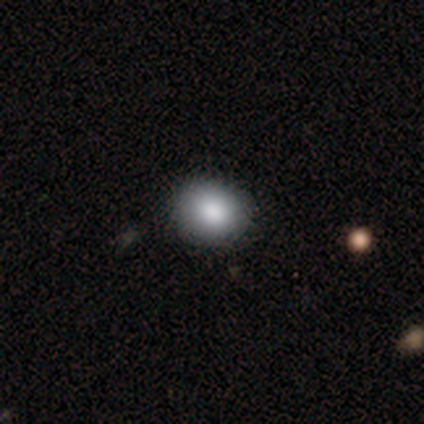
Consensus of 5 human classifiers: A smooth galaxy with no disk features (100%) that is round (80%).

Vote fractions:
- Smooth or featured? smooth: 100% / featured or disk: 0% / star or artifact: 0%
- How rounded? round: 80% / in between: 20% / cigar-shaped: 0%
- Merging? none: 100% / minor disturbance: 0% / major disturbance: 0% / merger: 0%